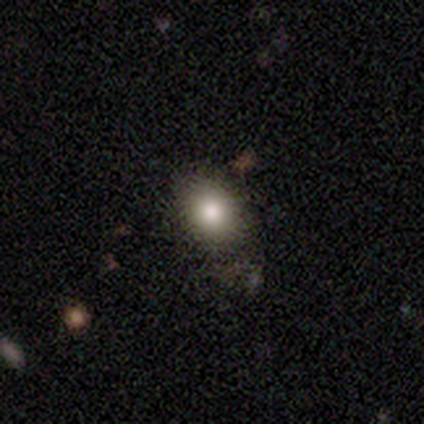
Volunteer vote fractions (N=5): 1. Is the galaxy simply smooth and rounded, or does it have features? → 80% smooth, 20% star or artifact, 0% featured or disk.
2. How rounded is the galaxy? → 50% round (tied), 50% in between (tied), 0% cigar-shaped.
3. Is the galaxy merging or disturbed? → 75% none, 25% minor disturbance, 0% major disturbance, 0% merger.